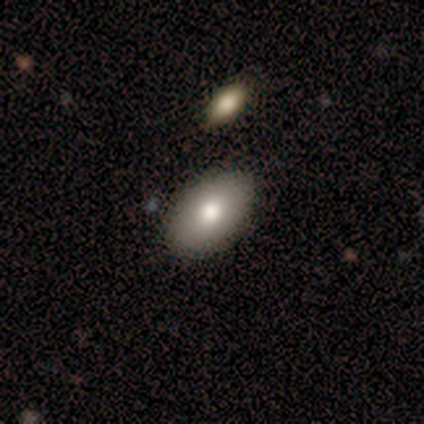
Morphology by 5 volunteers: A smooth galaxy with no disk features (80%) that is in between round and cigar-shaped (100%). Merging: none (80%).